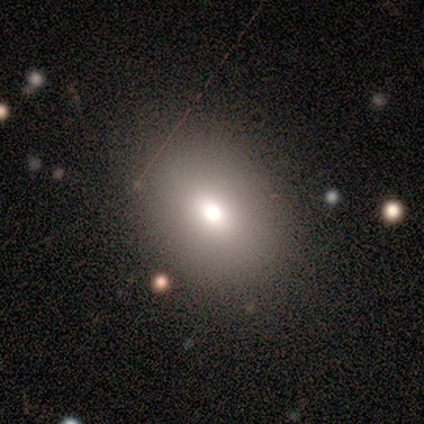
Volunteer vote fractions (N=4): A smooth galaxy with no disk features (100%) that is round (75%).

Vote fractions:
- Smooth or featured? smooth: 100% / featured or disk: 0% / star or artifact: 0%
- How rounded? round: 75% / in between: 25% / cigar-shaped: 0%
- Merging? none: 75% / major disturbance: 25% / minor disturbance: 0% / merger: 0%